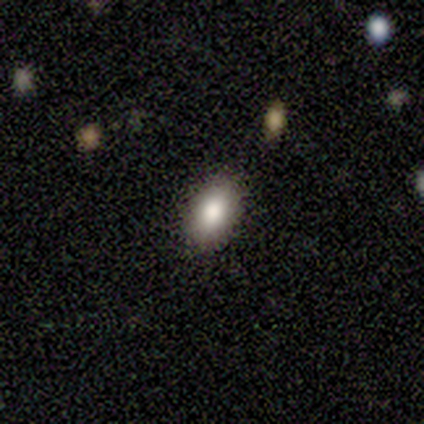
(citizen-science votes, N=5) smooth 80%, featured or disk 20%, star or artifact 0%. Down the decision tree: how rounded — in between (75%); merging — none (60%).